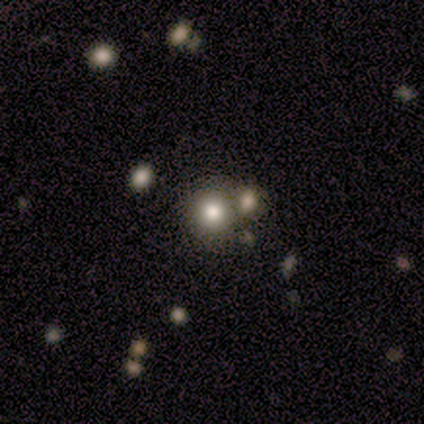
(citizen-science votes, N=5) Morphology: type=smooth (60%); roundness=round (67%); merging=none (75%).